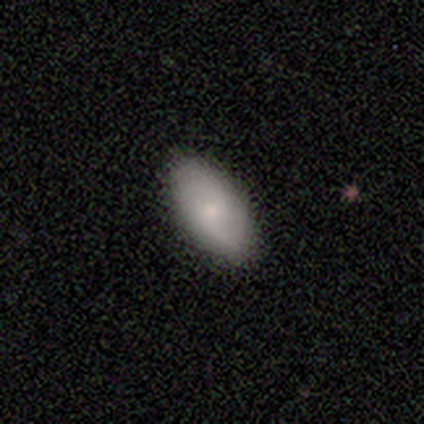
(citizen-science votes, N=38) This is likely a smooth galaxy (74%). How rounded: clearly in between (96%). Merging: clearly none (89%).